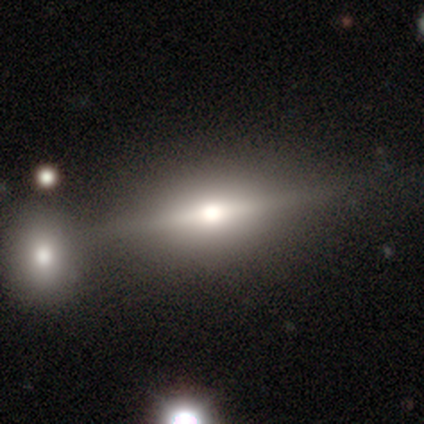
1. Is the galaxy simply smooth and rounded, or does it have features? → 80% featured or disk, 20% smooth, 0% star or artifact.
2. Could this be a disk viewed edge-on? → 100% yes, 0% no.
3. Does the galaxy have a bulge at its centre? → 75% rounded, 25% none, 0% boxy.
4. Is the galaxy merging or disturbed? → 60% none, 40% minor disturbance, 0% major disturbance, 0% merger.